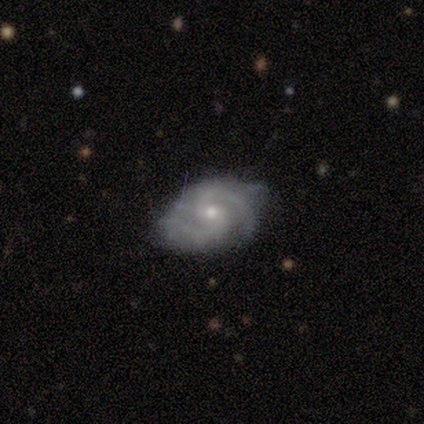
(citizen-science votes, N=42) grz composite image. It shows a featured or disk galaxy (88%) with a weak bar (54%), 2 (83%) medium (50%) spiral arms (97%) and a small central bulge (62%). Merging: none (62%).